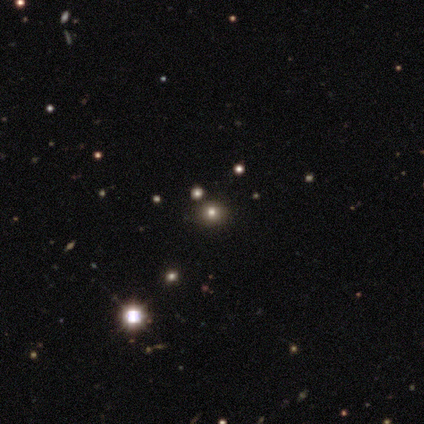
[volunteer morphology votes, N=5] Volunteers were most divided on "how rounded" (3-way tie): round: 33%, in between: 33%, cigar-shaped: 33%. More confident: merging — none (100%); smooth or featured — smooth (60%).